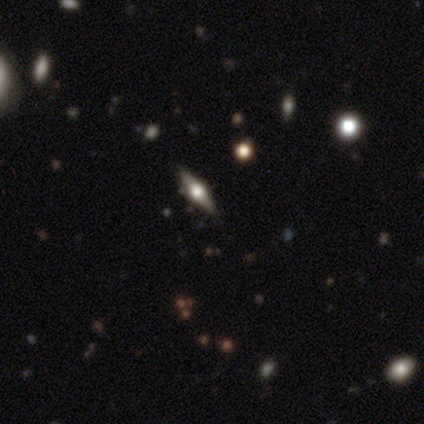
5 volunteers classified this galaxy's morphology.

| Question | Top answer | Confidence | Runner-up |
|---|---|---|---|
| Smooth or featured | featured or disk | 80% | star or artifact (20%) |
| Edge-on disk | yes | 100% | — |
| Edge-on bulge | rounded | 75% | boxy (25%) |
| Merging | none | 100% | — |